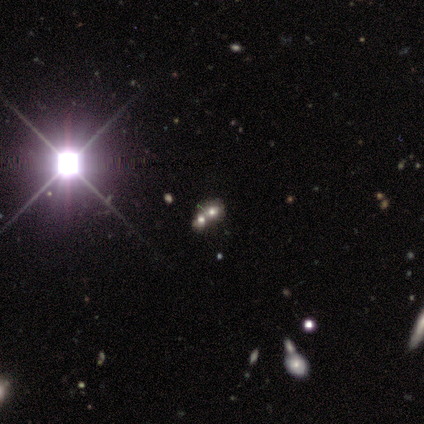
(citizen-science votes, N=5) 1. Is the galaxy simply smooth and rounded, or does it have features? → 80% smooth, 20% star or artifact, 0% featured or disk.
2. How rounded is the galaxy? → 100% round, 0% in between, 0% cigar-shaped.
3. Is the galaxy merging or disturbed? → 100% merger, 0% none, 0% minor disturbance, 0% major disturbance.